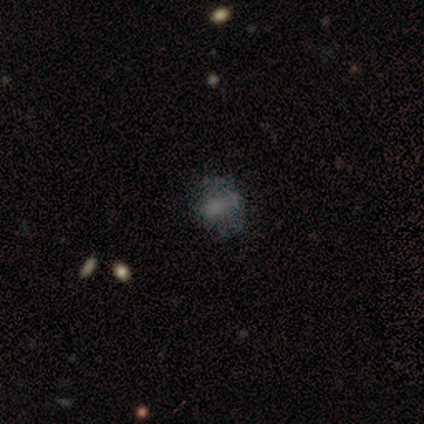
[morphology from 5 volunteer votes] Volunteers were most divided on "smooth or featured": smooth: 60%, featured or disk: 40%, star or artifact: 0%. Remaining: how rounded — in between (67%); merging — minor disturbance (40%).